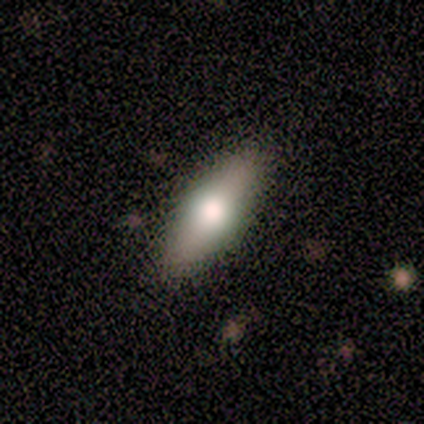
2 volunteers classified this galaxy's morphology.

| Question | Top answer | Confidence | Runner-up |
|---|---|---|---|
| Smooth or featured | featured or disk | 100% | — |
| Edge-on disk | yes | 50% | tied: no (50%) |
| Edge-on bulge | boxy | 100% | — |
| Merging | none | 50% | tied: minor disturbance (50%) |